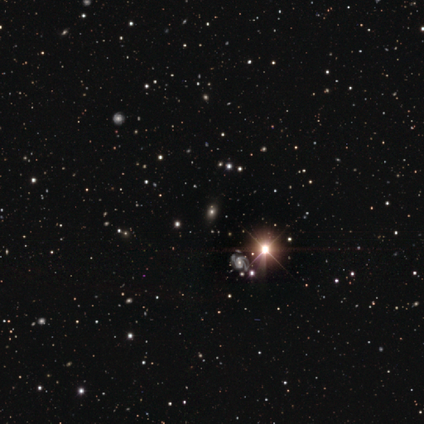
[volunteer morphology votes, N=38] star or artifact 53%, smooth 24%, featured or disk 24%.